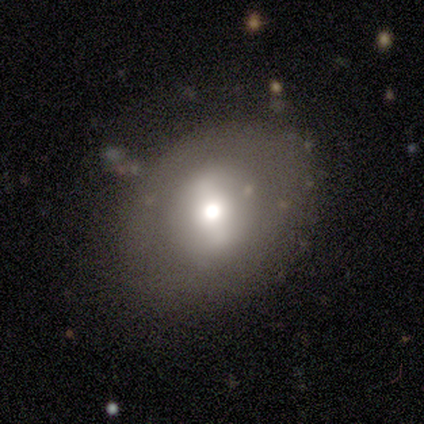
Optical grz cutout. It shows a smooth galaxy with no disk features (57%) that is in between round and cigar-shaped (50%). Merging: none (57%).